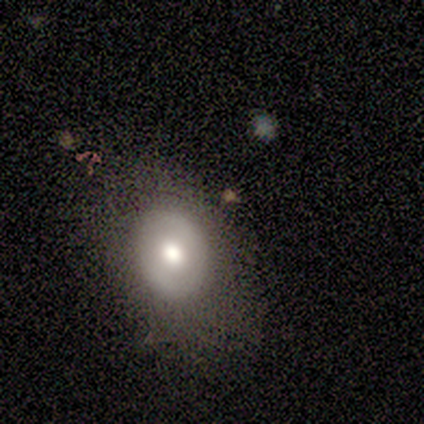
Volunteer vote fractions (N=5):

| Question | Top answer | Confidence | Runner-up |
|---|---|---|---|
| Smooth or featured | smooth | 40% | tied: featured or disk (40%) |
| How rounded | in between | 100% | — |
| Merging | none | 75% | minor disturbance (25%) |